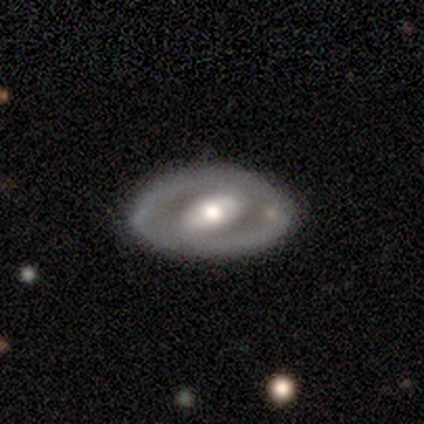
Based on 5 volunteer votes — Volunteers were most divided on "spiral arms" (2-way tie): yes: 50%, no: 50%; "spiral winding" (2-way tie): tight: 50%, medium: 50%, loose: 0%. More confident: edge-on disk — no (100%); spiral arm count — 2 (100%); bulge size — moderate (100%); smooth or featured — featured or disk (80%); merging — none (80%); bar — weak (50%).